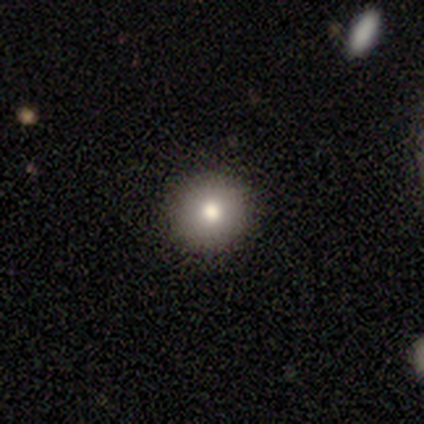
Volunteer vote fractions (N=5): Smooth or featured? 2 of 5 (40%, tied with featured or disk) said smooth. How rounded? 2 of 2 (100%) said round. Merging? 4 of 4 (100%) said none.